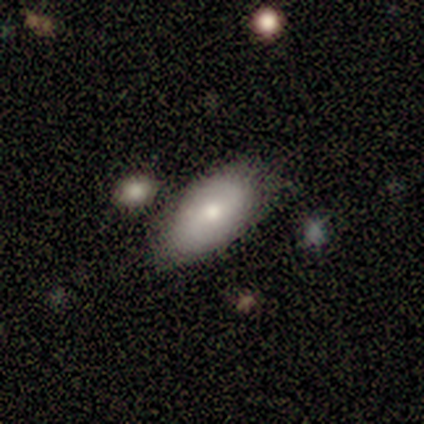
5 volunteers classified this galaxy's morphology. This appears to be a smooth galaxy with no disk features (60%) that is in between round and cigar-shaped (100%). Merging: none (75%).